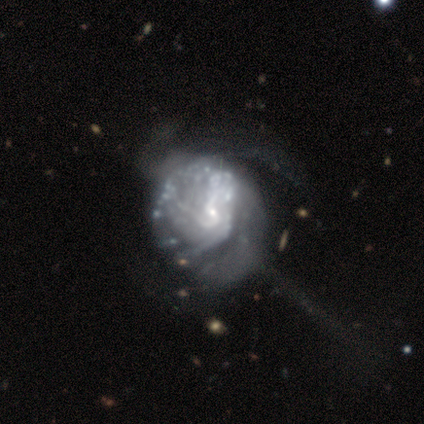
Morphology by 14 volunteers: Smooth or featured: featured or disk — 93% (star or artifact — 7%)
Edge-on disk: no — 100%
Bar: no — 62% (weak — 38%)
Spiral arms: yes — 54% (no — 46%)
Spiral winding: medium — 43% (tight — 29%)
Spiral arm count: can't tell — 100%
Bulge size: small — 92% (none — 8%)
Merging: major disturbance — 38% (none — 23%)